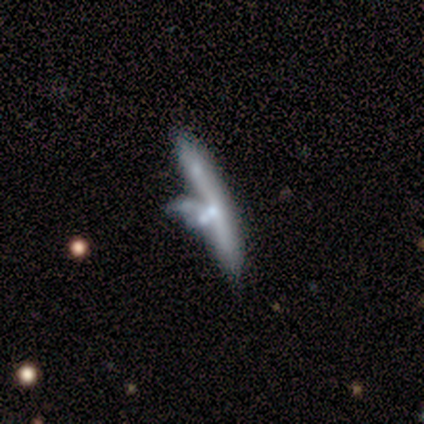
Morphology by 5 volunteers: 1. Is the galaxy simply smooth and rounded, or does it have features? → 60% featured or disk, 40% smooth, 0% star or artifact.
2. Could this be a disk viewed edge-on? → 67% yes, 33% no.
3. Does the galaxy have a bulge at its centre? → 50% none (tied), 50% rounded (tied), 0% boxy.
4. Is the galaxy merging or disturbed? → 60% merger, 20% none, 20% major disturbance, 0% minor disturbance.